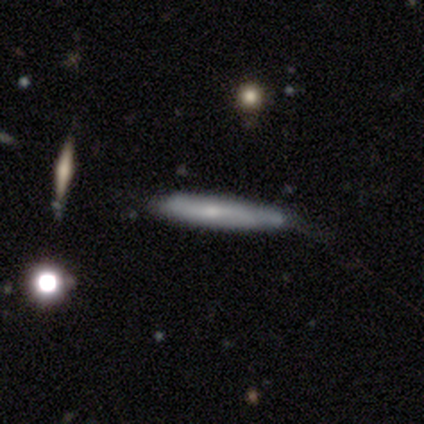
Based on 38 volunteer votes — This is possibly a smooth galaxy (50%). How rounded: clearly cigar-shaped (95%). Merging: possibly none (50%).